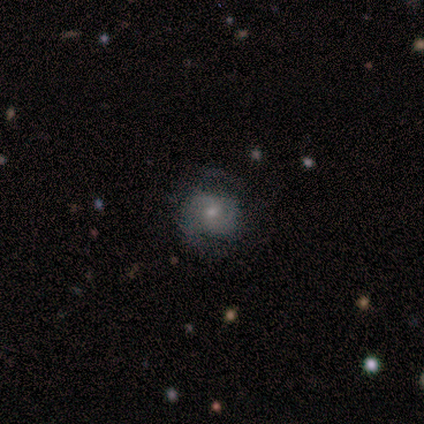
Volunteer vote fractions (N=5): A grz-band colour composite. It shows a featured or disk galaxy (80%) with no bar (75%), 2 (75%) tight (50%) spiral arms (100%) and a small central bulge (75%). Merging: none (60%).